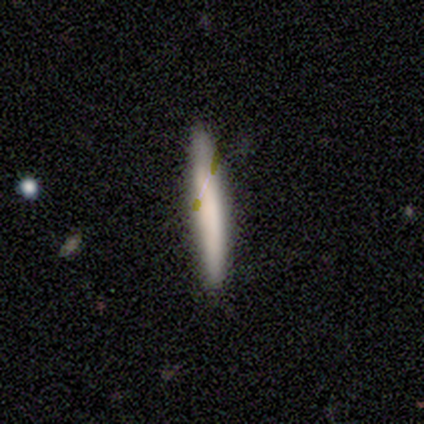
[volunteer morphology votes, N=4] Overall: smooth (100%). How rounded: cigar-shaped (100%). Merging: none (100%).